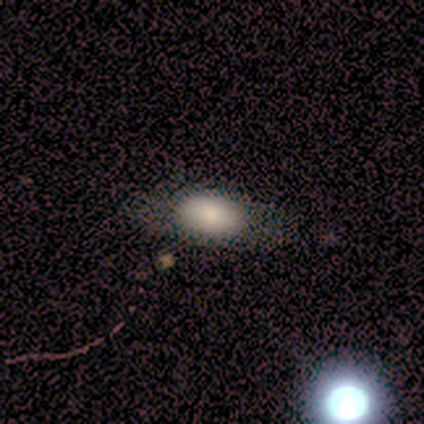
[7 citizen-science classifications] smooth-or-featured: smooth: 100% | featured or disk: 0% | star or artifact: 0%
  how-rounded: in between: 57% | cigar-shaped: 29% | round: 14%
  merging: none: 86% | major disturbance: 14% | minor disturbance: 0% | merger: 0%